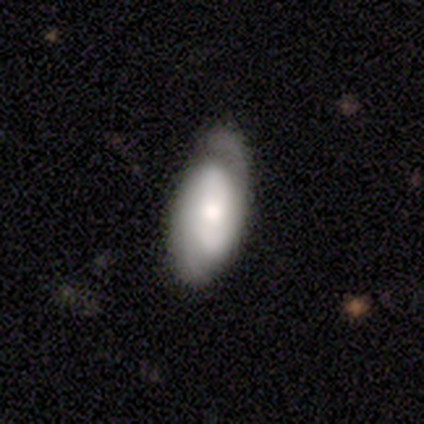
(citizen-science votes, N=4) smooth_or_featured: featured or disk (p=0.75) [alt: smooth p=0.25]
disk_edge_on: no (p=1.00)
bar: no (p=1.00)
has_spiral_arms: yes (p=1.00)
spiral_winding: medium (p=1.00)
spiral_arm_count: 2 (p=0.67) [alt: 1 p=0.33]
bulge_size: small (p=0.67) [alt: moderate p=0.33]
merging: none (p=0.75) [alt: minor disturbance p=0.25]